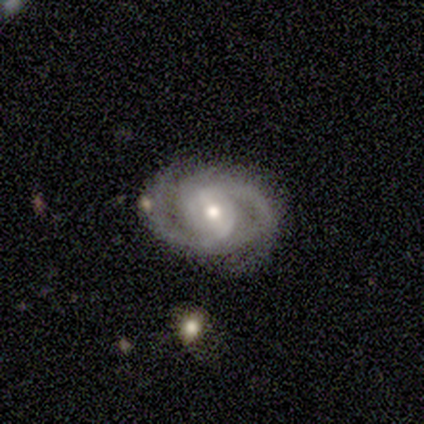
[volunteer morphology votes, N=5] Overall: featured or disk (80%). Edge-on disk: no (100%). Bar: strong (50%; weak 25%). Spiral arms: yes (100%). Spiral arm count: 3 (50%; 2 25%). Spiral winding: tight (50%, tied with medium). Bulge size: moderate (75%). Merging: none (100%).